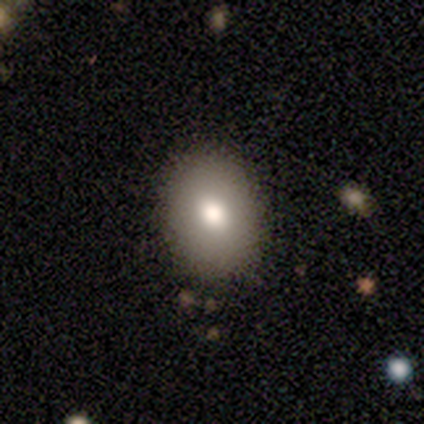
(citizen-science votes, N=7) Smooth or featured? 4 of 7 (57%) said smooth. How rounded? 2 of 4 (50%, tied with in between) said round. Merging? 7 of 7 (100%) said none.